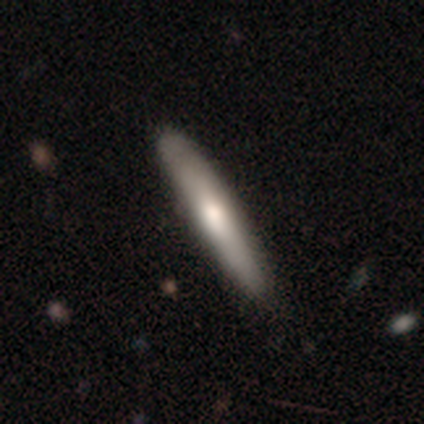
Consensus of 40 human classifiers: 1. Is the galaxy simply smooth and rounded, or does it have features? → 55% smooth, 45% featured or disk, 0% star or artifact.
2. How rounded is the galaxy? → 95% cigar-shaped, 5% in between, 0% round.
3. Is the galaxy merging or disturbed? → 60% none, 15% minor disturbance, 2% merger, 0% major disturbance.